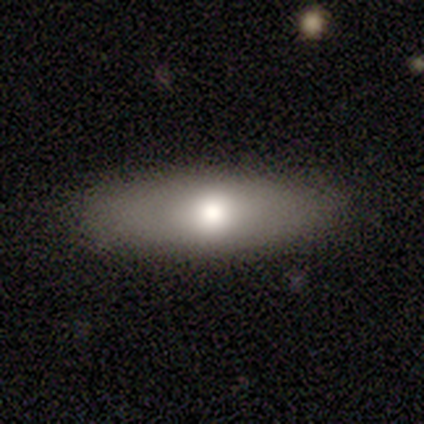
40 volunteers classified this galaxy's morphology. Overall: smooth (60%; featured or disk 38%). How rounded: in between (67%; cigar-shaped 33%). Merging: none (87%).